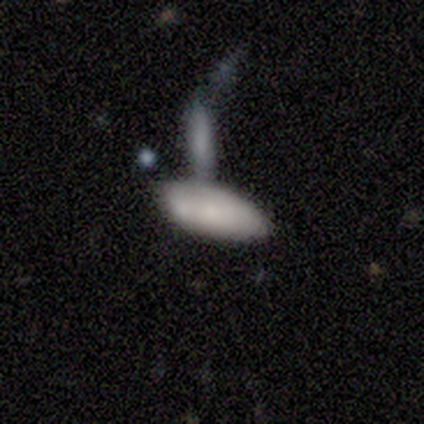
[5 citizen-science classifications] smooth-or-featured: smooth: 60% | featured or disk: 40% | star or artifact: 0%
  how-rounded: in between: 100% | round: 0% | cigar-shaped: 0%
  merging: merger: 60% | none: 20% | minor disturbance: 20% | major disturbance: 0%